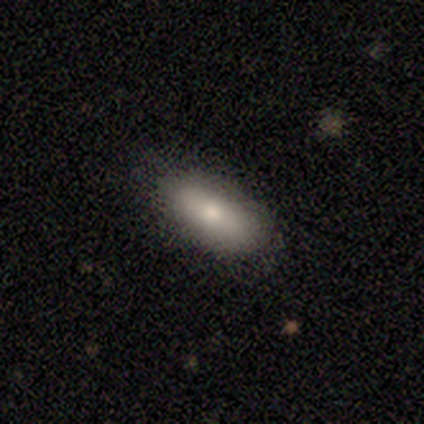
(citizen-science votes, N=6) Smooth or featured: smooth — 100%
How rounded: in between — 83% (cigar-shaped — 17%)
Merging: none — 83% (minor disturbance — 17%)